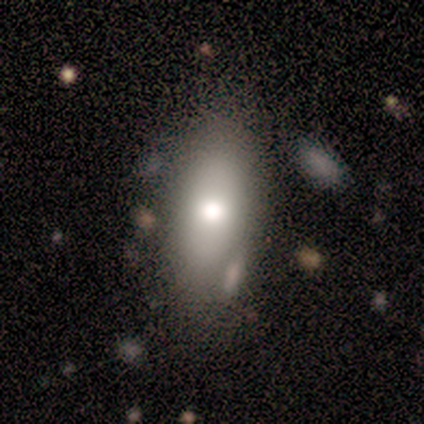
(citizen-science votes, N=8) This is likely a smooth galaxy (75%). How rounded: possibly in between (50%, tied with cigar-shaped). Merging: possibly none (57%).